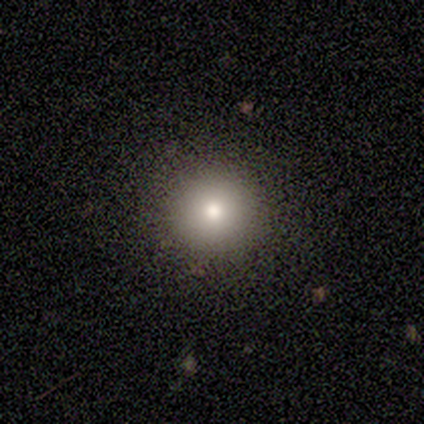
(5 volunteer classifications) smooth 100%, featured or disk 0%, star or artifact 0%. Down the decision tree: how rounded — round (100%); merging — none (100%).